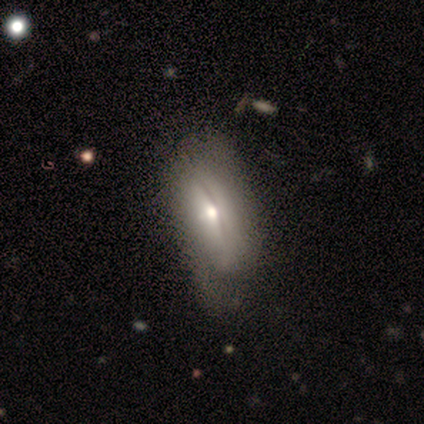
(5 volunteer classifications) Q: Smooth or featured?
A: smooth (60%); runner-up: featured or disk (20%)
Q: How rounded?
A: in between (100%)
Q: Merging?
A: none (25%); tied with: minor disturbance (25%); major disturbance (25%); merger (25%)